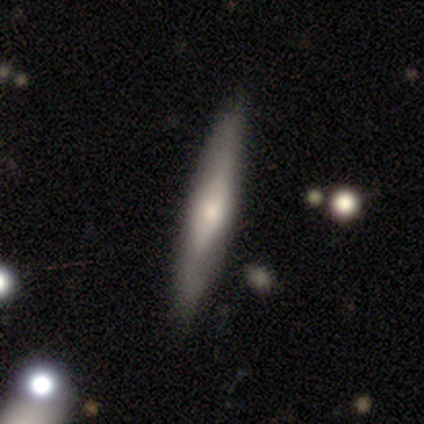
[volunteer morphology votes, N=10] smooth-or-featured: smooth: 50% (tied) | featured or disk: 50% (tied) | star or artifact: 0%
  how-rounded: cigar-shaped: 100% | round: 0% | in between: 0%
  merging: none: 70% | minor disturbance: 30% | major disturbance: 0% | merger: 0%